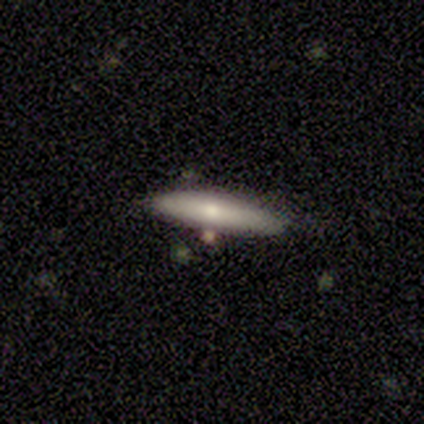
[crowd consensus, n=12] Smooth or featured?
  - smooth: 58% *
  - featured or disk: 25%
  - star or artifact: 17%
How rounded?
  - cigar-shaped: 86% *
  - in between: 14%
  - round: 0%
Merging?
  - none: 60% *
  - minor disturbance: 40%
  - major disturbance: 0%
  - merger: 0%